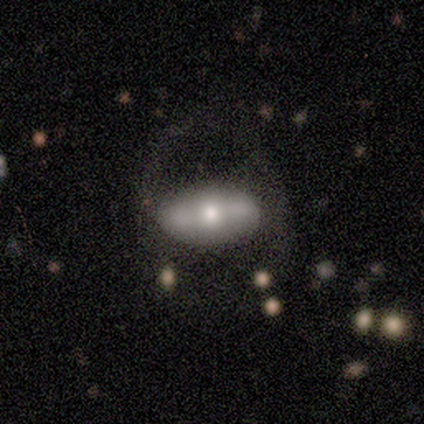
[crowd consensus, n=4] This is likely a featured or disk galaxy (75%). It is clearly not viewed edge-on (100%). Bar: likely weak (67%). Spiral arm pattern: clearly no (100%). Central bulge: likely moderate (67%). Merging: possibly major disturbance (50%).